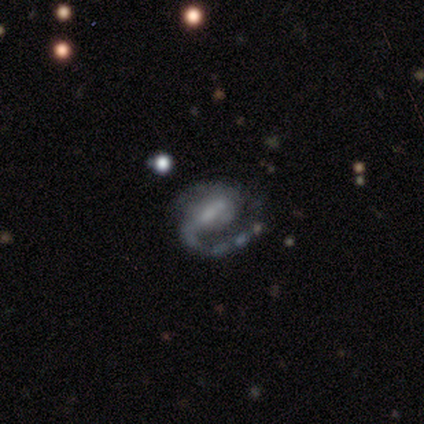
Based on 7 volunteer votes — featured or disk 71%, smooth 14%, star or artifact 14%. Down the decision tree: edge-on disk — no (100%); bar — strong (40%, tied with weak); spiral arms — yes (100%); spiral arm count — 2 (80%); spiral winding — medium (80%); bulge size — small (40%, tied with none); merging — none (67%).